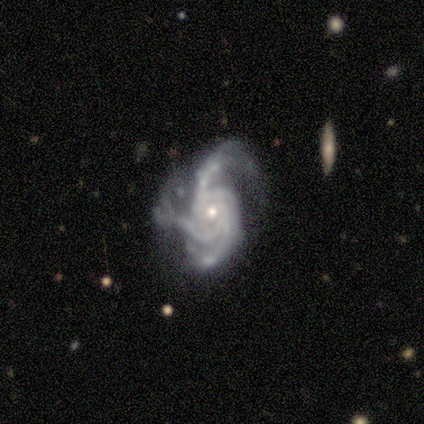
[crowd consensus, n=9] Volunteers were most divided on "spiral winding": tight: 56%, medium: 33%, loose: 11%. More confident: smooth or featured — featured or disk (100%); edge-on disk — no (100%); bar — no (100%); spiral arms — yes (100%); bulge size — small (67%); spiral arm count — 4 (56%); merging — major disturbance (56%).